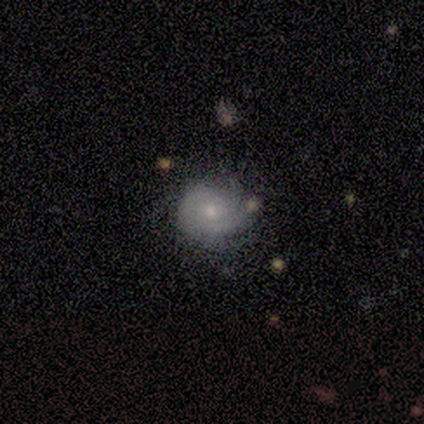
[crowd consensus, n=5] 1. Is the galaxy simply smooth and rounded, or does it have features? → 60% smooth, 40% featured or disk, 0% star or artifact.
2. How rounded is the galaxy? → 100% round, 0% in between, 0% cigar-shaped.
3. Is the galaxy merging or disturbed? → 60% none, 40% minor disturbance, 0% major disturbance, 0% merger.